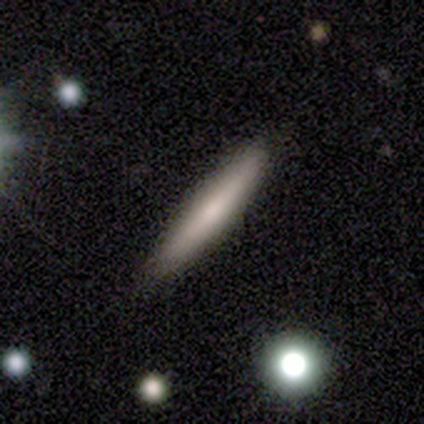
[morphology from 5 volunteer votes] Smooth or featured? smooth (60%)
How rounded? cigar-shaped (100%)
Merging? none (60%)